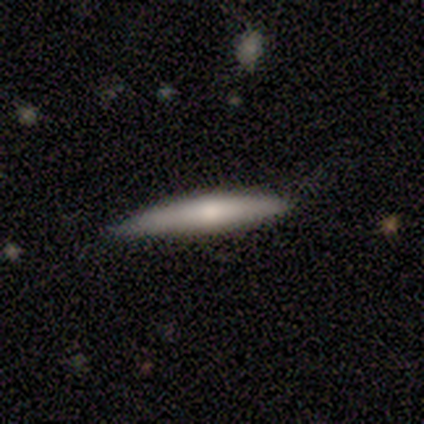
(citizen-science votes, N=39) smooth-or-featured: smooth: 51% | featured or disk: 38% | star or artifact: 10%
  how-rounded: cigar-shaped: 95% | in between: 5% | round: 0%
  merging: none: 80% | minor disturbance: 20% | major disturbance: 0% | merger: 0%